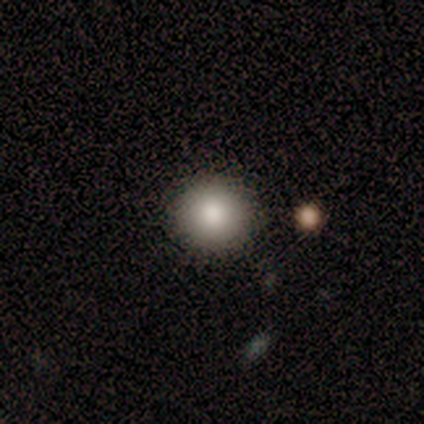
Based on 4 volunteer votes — smooth 100%, featured or disk 0%, star or artifact 0%. Down the decision tree: how rounded — round (100%); merging — none (100%).